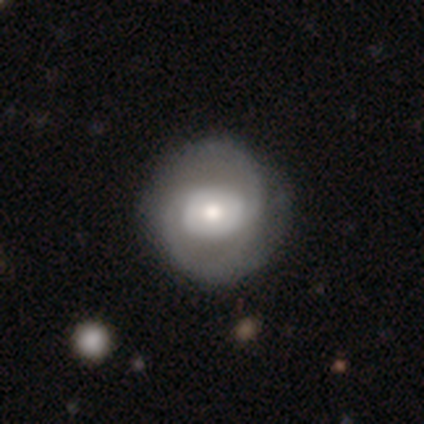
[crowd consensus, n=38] Overall: featured or disk (71%). Edge-on disk: no (100%). Bar: no (67%). Spiral arms: yes (81%). Spiral arm count: 2 (86%). Spiral winding: medium (50%; tight 36%). Bulge size: moderate (63%). Merging: none (40%; minor disturbance 14%).